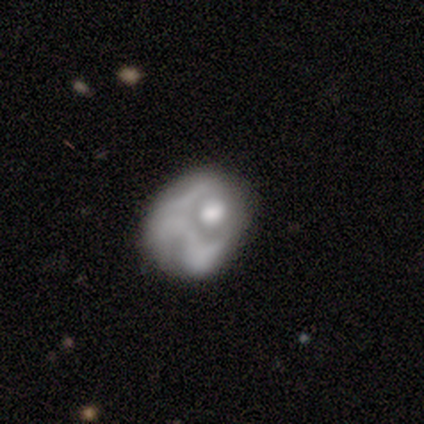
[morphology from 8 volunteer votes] Smooth or featured: smooth — 38% (tied with featured or disk — 38%)
How rounded: in between — 67% (round — 33%)
Merging: major disturbance — 33% (tied with merger — 33%)